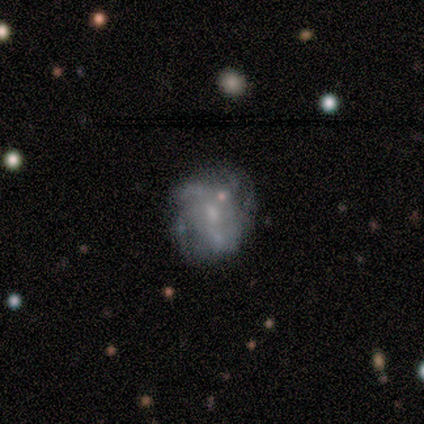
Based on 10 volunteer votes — Morphology: type=featured or disk (50%); edge-on=no (100%); bar=weak (60%); spiral arms=yes (100%); winding=medium (60%); arm count=can't tell (80%); bulge=small (80%); merging=none (67%).